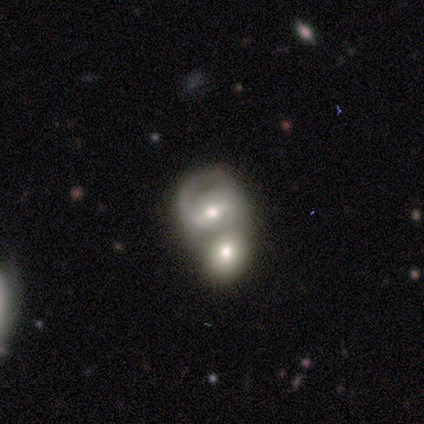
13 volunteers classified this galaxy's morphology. A featured or disk galaxy (69%) with a strong bar (44%), 2 (75%) medium (62%) spiral arms (89%) and a moderate central bulge (78%).

Vote fractions:
- Smooth or featured? featured or disk: 69% / smooth: 31% / star or artifact: 0%
- Edge-on disk? no: 100% / yes: 0%
- Bar? strong: 44% / weak: 33% / no: 22%
- Spiral arms? yes: 89% / no: 11%
- Spiral winding? medium: 62% / tight: 38% / loose: 0%
- Spiral arm count? 2: 75% / 1: 12% / 4: 12% / 3: 0% / more than 4: 0% / can't tell: 0%
- Bulge size? moderate: 78% / small: 22% / dominant: 0% / large: 0% / none: 0%
- Merging? merger: 77% / none: 15% / major disturbance: 8% / minor disturbance: 0%